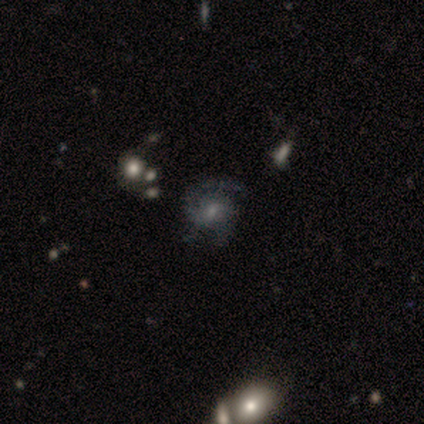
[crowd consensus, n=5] Smooth or featured: featured or disk — 100%
Edge-on disk: no — 100%
Bar: no — 80% (weak — 20%)
Spiral arms: yes — 80% (no — 20%)
Spiral winding: tight — 50% (medium — 25%)
Spiral arm count: 2 — 75% (1 — 25%)
Bulge size: none — 60% (moderate — 20%)
Merging: none — 60% (minor disturbance — 40%)